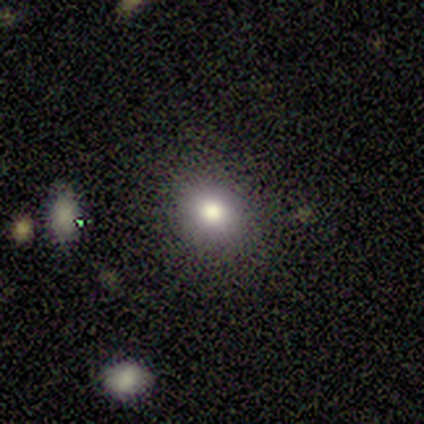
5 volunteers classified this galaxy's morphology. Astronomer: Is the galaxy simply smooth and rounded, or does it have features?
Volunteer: smooth — 40%, tied with star or artifact at 40%.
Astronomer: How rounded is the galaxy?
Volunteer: round — 100%.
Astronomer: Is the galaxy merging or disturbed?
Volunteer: none — 67%.